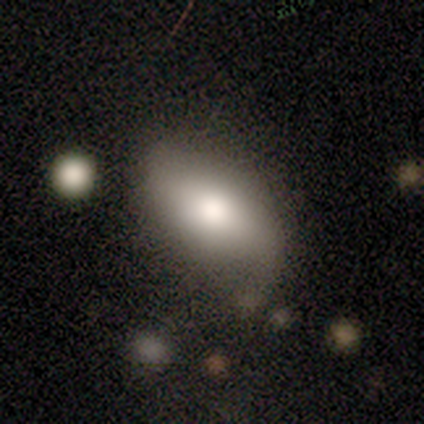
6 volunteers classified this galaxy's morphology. featured or disk 50%, smooth 33%, star or artifact 17%. Down the decision tree: edge-on disk — no (67%); bar — weak (50%, tied with no); spiral arms — yes (50%, tied with no); spiral arm count — 2 (100%); spiral winding — medium (100%); bulge size — moderate (100%); merging — none (60%).